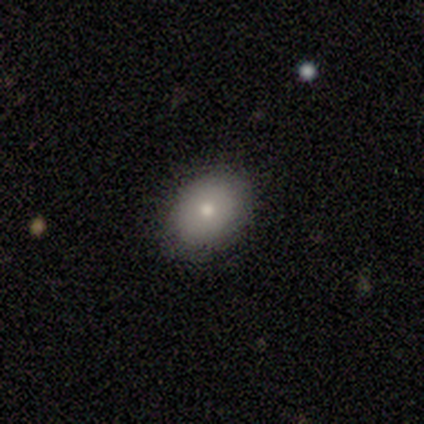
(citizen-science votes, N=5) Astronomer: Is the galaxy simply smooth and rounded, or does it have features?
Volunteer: smooth — 100%.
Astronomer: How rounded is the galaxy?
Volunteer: in between — 80%.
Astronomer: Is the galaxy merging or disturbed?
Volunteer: none — 80%.